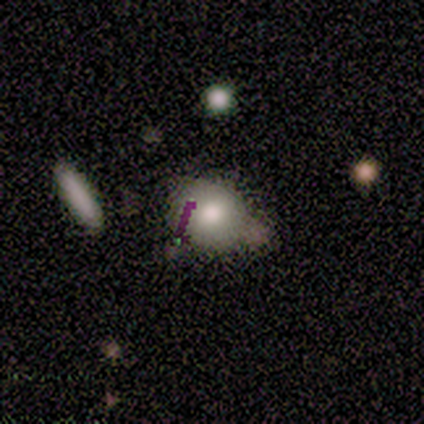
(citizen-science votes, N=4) Volunteers were most divided on "merging": none: 50%, major disturbance: 25%, merger: 25%, minor disturbance: 0%. More confident: smooth or featured — smooth (100%); how rounded — in between (75%).